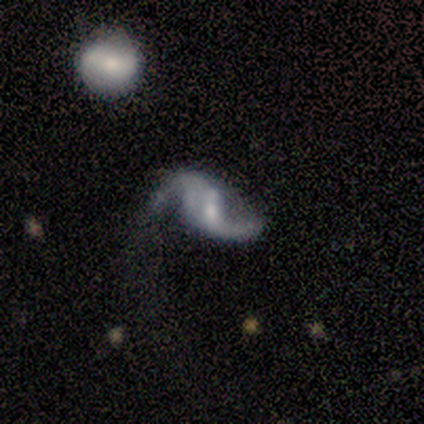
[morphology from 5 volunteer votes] Q: Smooth or featured?
A: featured or disk (100%)
Q: Edge-on disk?
A: no (80%); runner-up: yes (20%)
Q: Bar?
A: weak (50%); tied with: no (50%)
Q: Spiral arms?
A: yes (75%); runner-up: no (25%)
Q: Spiral winding?
A: loose (100%)
Q: Spiral arm count?
A: 2 (100%)
Q: Bulge size?
A: moderate (50%); tied with: none (50%)
Q: Merging?
A: minor disturbance (40%); tied with: major disturbance (40%)